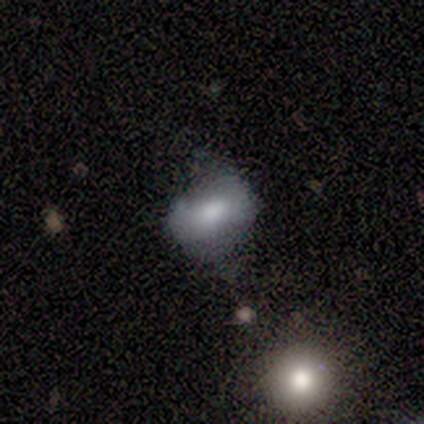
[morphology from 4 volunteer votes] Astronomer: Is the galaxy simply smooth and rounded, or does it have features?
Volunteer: smooth — 75%.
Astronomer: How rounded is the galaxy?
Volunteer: in between — 100%.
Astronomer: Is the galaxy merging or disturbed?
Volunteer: minor disturbance — 50%.